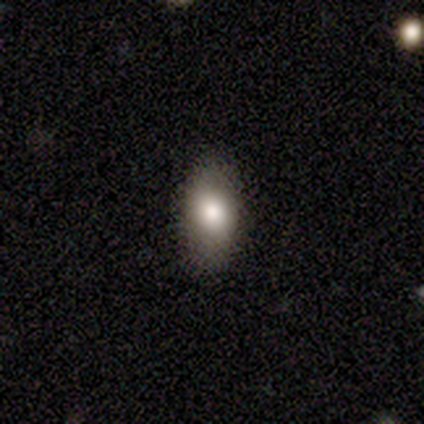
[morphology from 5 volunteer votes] Smooth or featured?
  - smooth: 80% *
  - star or artifact: 20%
  - featured or disk: 0%
How rounded?
  - in between: 75% *
  - cigar-shaped: 25%
  - round: 0%
Merging?
  - none: 100% *
  - minor disturbance: 0%
  - major disturbance: 0%
  - merger: 0%